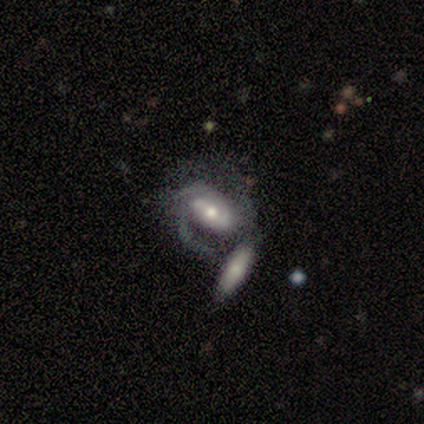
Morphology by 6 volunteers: Smooth or featured: featured or disk — 100%
Edge-on disk: no — 100%
Bar: weak — 50% (no — 33%)
Spiral arms: yes — 100%
Spiral winding: medium — 50% (tied with loose — 50%)
Spiral arm count: 2 — 50% (can't tell — 33%)
Bulge size: moderate — 50% (small — 33%)
Merging: merger — 83% (none — 17%)